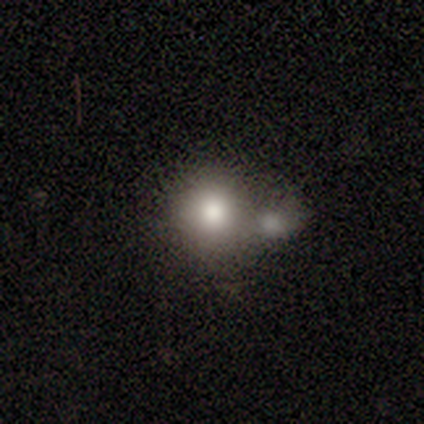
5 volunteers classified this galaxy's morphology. A smooth galaxy with no disk features (100%) that is round (100%).

Vote fractions:
- Smooth or featured? smooth: 100% / featured or disk: 0% / star or artifact: 0%
- How rounded? round: 100% / in between: 0% / cigar-shaped: 0%
- Merging? merger: 60% / none: 40% / minor disturbance: 0% / major disturbance: 0%